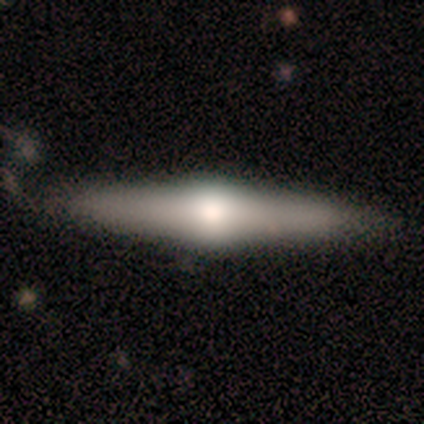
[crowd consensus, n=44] featured or disk 73%, smooth 23%, star or artifact 5%. Down the decision tree: edge-on disk — yes (100%); edge-on bulge — rounded (91%); merging — none (86%).